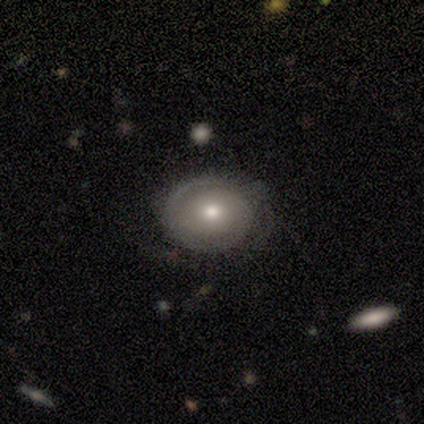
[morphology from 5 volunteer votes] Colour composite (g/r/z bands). It shows a smooth galaxy with no disk features (60%) that is round (67%). Merging: none (60%).